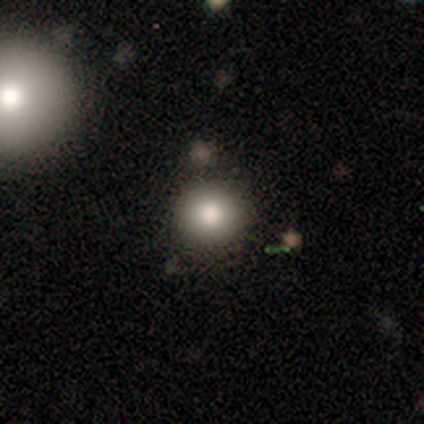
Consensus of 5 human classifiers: smooth 100%, featured or disk 0%, star or artifact 0%. Down the decision tree: how rounded — round (100%); merging — none (80%).